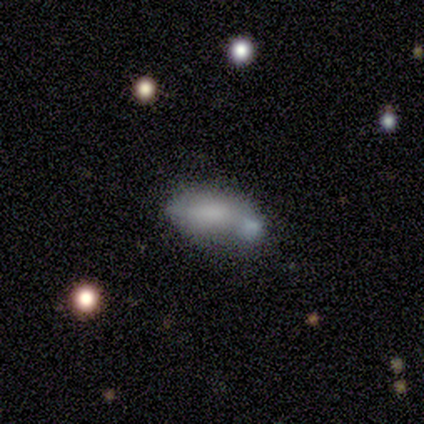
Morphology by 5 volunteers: This appears to be a smooth galaxy with no disk features (80%) that is in between round and cigar-shaped (75%). Merging: none (40%, tied with major disturbance).